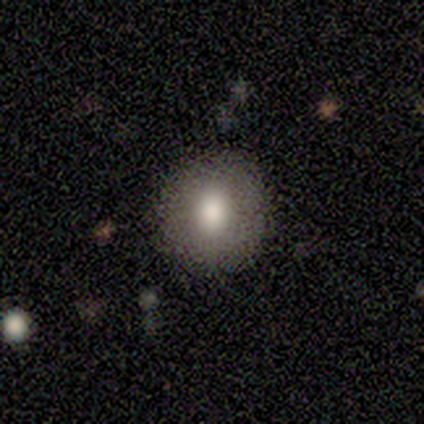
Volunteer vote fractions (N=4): smooth-or-featured: smooth: 100% | featured or disk: 0% | star or artifact: 0%
  how-rounded: round: 75% | in between: 25% | cigar-shaped: 0%
  merging: none: 75% | minor disturbance: 25% | major disturbance: 0% | merger: 0%